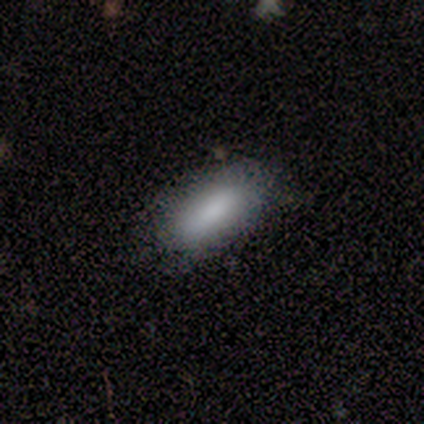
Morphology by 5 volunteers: smooth 60%, featured or disk 40%, star or artifact 0%. Down the decision tree: how rounded — in between (100%); merging — none (80%).